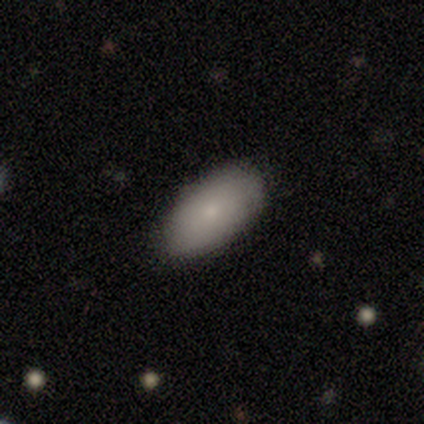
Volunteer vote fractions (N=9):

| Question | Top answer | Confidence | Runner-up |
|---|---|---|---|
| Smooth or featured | smooth | 89% | featured or disk (11%) |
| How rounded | in between | 100% | — |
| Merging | none | 100% | — |